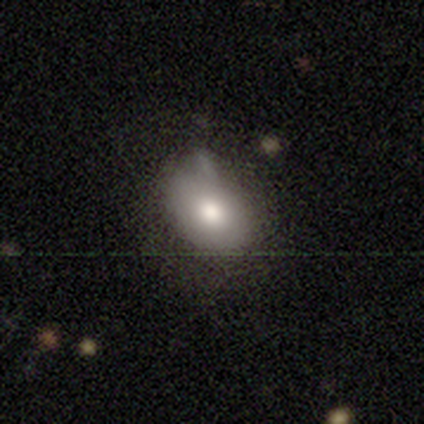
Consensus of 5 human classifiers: Volunteers were most divided on "how rounded": round: 75%, in between: 25%, cigar-shaped: 0%. More confident: smooth or featured — smooth (80%); merging — none (80%).